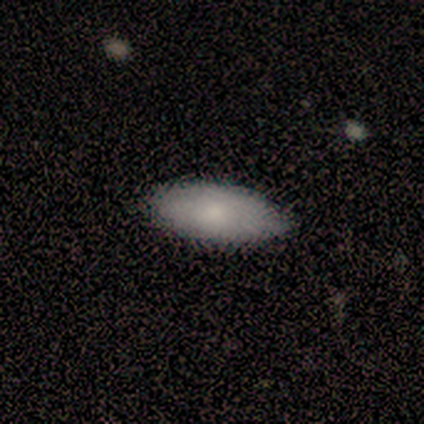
Volunteers were most divided on "smooth or featured" (2-way tie): smooth: 40%, featured or disk: 40%, star or artifact: 20%. More confident: how rounded — in between (100%); merging — none (75%).